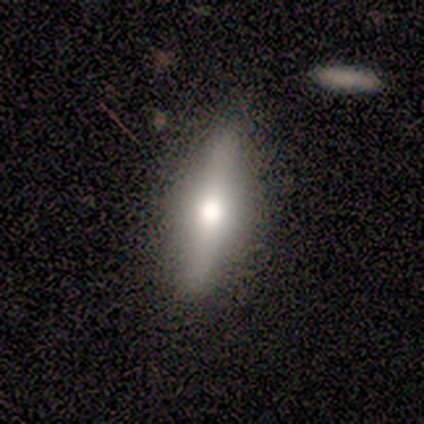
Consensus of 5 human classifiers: smooth_or_featured: smooth (p=0.60) [alt: featured or disk p=0.40]
how_rounded: in between (p=0.67) [alt: cigar-shaped p=0.33]
merging: none (p=1.00)